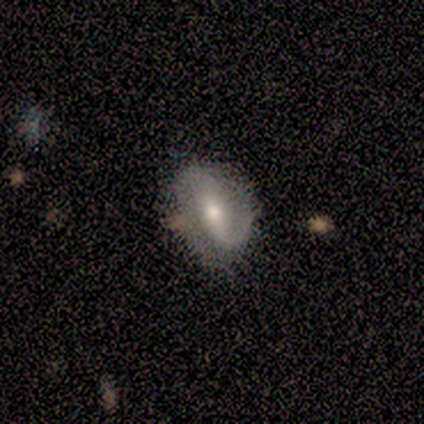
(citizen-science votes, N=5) A featured or disk galaxy (80%) with a weak bar (50%), 2 (100%) medium (50%) spiral arms (100%) and a moderate central bulge (50%). Merging: none (100%).